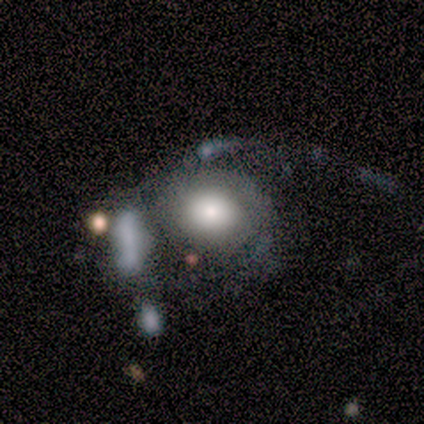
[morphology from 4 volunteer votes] Smooth or featured? 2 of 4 (50%) said smooth. How rounded? 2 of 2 (100%) said round. Merging? 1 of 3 (33%, tied with major disturbance and merger) said none.